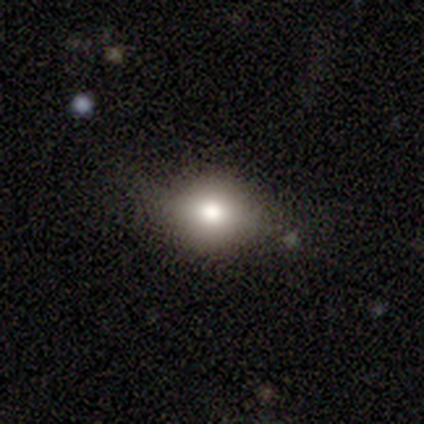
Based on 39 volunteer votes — This appears to be a smooth galaxy with no disk features (85%) that is round (61%). Merging: none (73%).